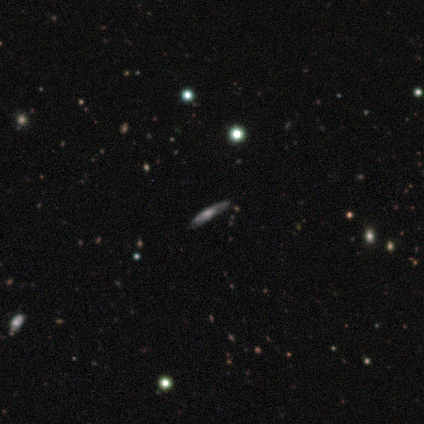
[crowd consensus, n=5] A featured or disk galaxy (60%) viewed edge-on (100%) with a boxy central bulge (33%, tied with none and rounded).

Vote fractions:
- Smooth or featured? featured or disk: 60% / smooth: 40% / star or artifact: 0%
- Edge-on disk? yes: 100% / no: 0%
- Edge-on bulge? boxy: 33% (tied) / none: 33% (tied) / rounded: 33% (tied)
- Merging? none: 60% / minor disturbance: 20% / major disturbance: 20% / merger: 0%